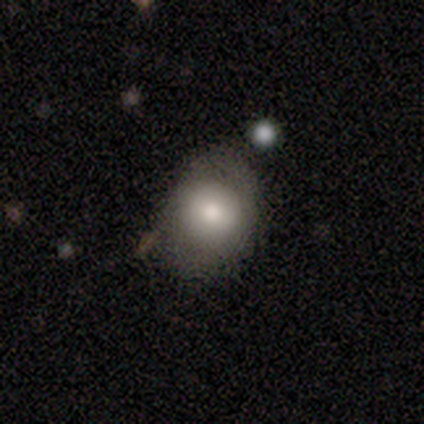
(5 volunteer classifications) Volunteers were most divided on "merging" (2-way tie): none: 50%, minor disturbance: 50%, major disturbance: 0%, merger: 0%. More confident: smooth or featured — smooth (80%); how rounded — in between (75%).